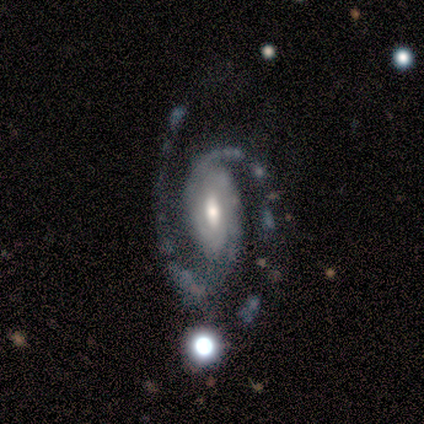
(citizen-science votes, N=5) featured or disk 100%, smooth 0%, star or artifact 0%. Down the decision tree: edge-on disk — no (100%); bar — no (60%); spiral arms — yes (100%); spiral arm count — 2 (100%); spiral winding — medium (60%); bulge size — moderate (60%); merging — none (80%).